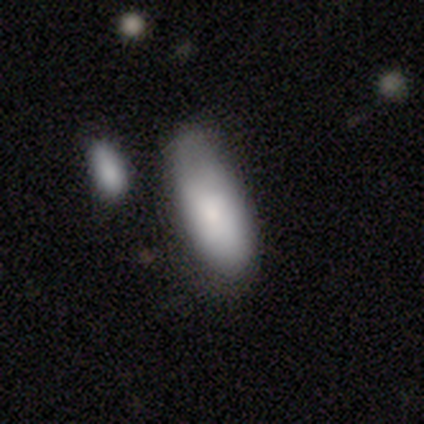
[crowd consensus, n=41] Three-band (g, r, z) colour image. It shows a smooth galaxy with no disk features (78%) that is in between round and cigar-shaped (100%). Merging: none (40%).